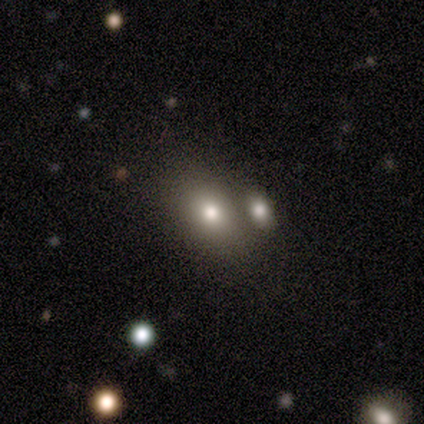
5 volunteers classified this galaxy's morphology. Q: Smooth or featured?
A: smooth (100%)
Q: How rounded?
A: in between (80%); runner-up: round (20%)
Q: Merging?
A: none (60%); runner-up: minor disturbance (20%)